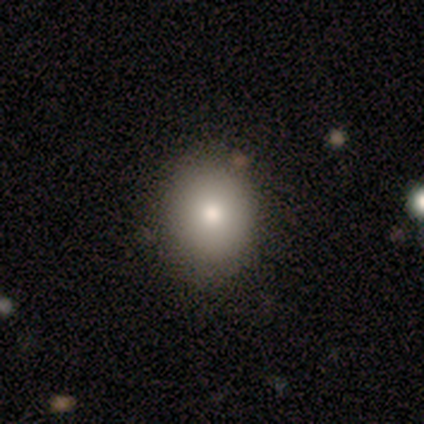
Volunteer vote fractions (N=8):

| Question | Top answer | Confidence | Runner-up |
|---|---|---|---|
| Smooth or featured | smooth | 75% | featured or disk (12%) |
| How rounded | in between | 67% | round (33%) |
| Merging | none | 71% | minor disturbance (29%) |